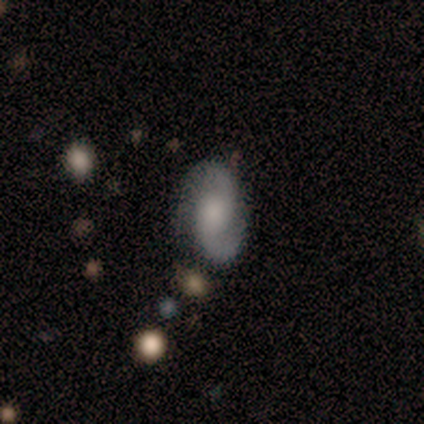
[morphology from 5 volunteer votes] This is clearly a featured or disk galaxy (100%). It is clearly not viewed edge-on (100%). Bar: likely no (60%). Spiral arm pattern: clearly yes (80%). Spiral arm count: clearly 2 (100%). Spiral winding: likely loose (75%). Central bulge: marginally moderate (40%, tied with small). Merging: likely none (60%).